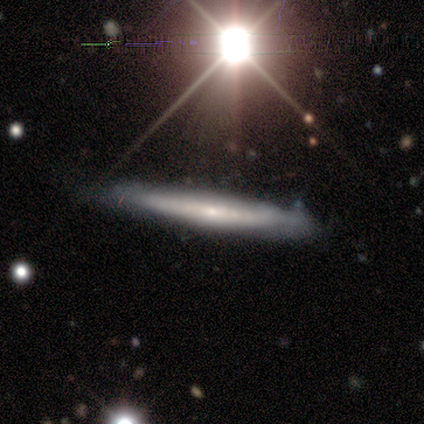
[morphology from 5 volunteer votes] Overall: featured or disk (60%; smooth 40%). Edge-on disk: yes (67%; no 33%). Edge-on bulge: boxy (50%, tied with rounded). Merging: none (80%).